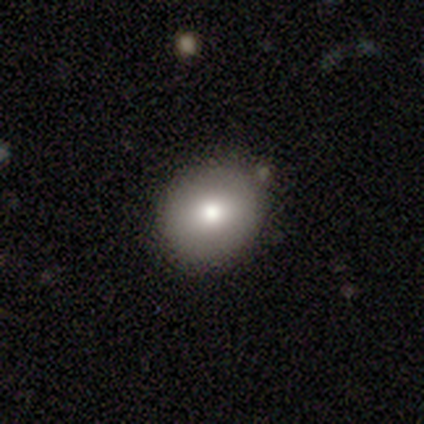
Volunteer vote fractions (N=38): smooth-or-featured: smooth: 66% | featured or disk: 24% | star or artifact: 11%
  how-rounded: round: 80% | in between: 20% | cigar-shaped: 0%
  merging: none: 71% | minor disturbance: 24% | major disturbance: 3% | merger: 3%